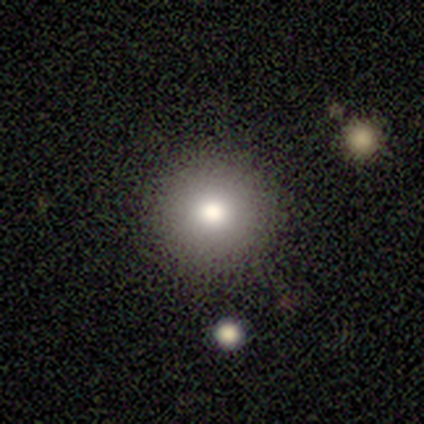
A smooth galaxy with no disk features (80%) that is round (100%).

Vote fractions:
- Smooth or featured? smooth: 80% / star or artifact: 20% / featured or disk: 0%
- How rounded? round: 100% / in between: 0% / cigar-shaped: 0%
- Merging? none: 100% / minor disturbance: 0% / major disturbance: 0% / merger: 0%